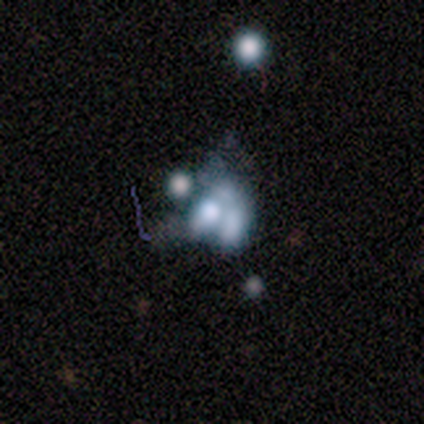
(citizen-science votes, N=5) smooth-or-featured: smooth: 80% | featured or disk: 20% | star or artifact: 0%
  how-rounded: in between: 100% | round: 0% | cigar-shaped: 0%
  merging: merger: 80% | none: 20% | minor disturbance: 0% | major disturbance: 0%